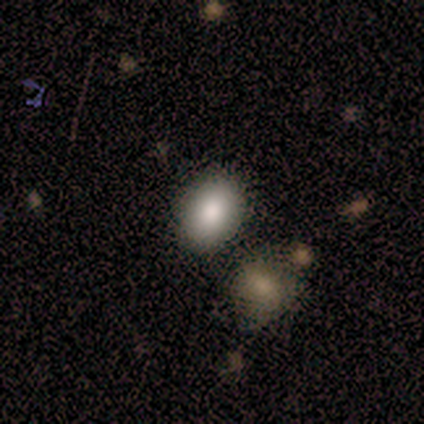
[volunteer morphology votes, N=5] Q: Smooth or featured?
A: smooth (40%); tied with: star or artifact (40%)
Q: How rounded?
A: round (50%); tied with: in between (50%)
Q: Merging?
A: none (100%)